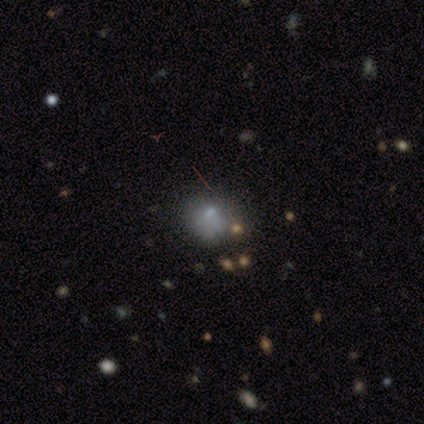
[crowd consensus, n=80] This appears to be a smooth galaxy with no disk features (55%) that is round (68%). Merging: none (31%).